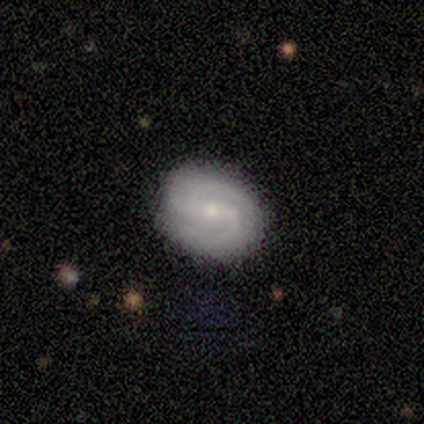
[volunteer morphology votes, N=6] This appears to be a featured or disk galaxy (83%) with no bar (80%), 2 (80%) tight (60%) spiral arms (100%) and a small central bulge (80%). Merging: none (67%).